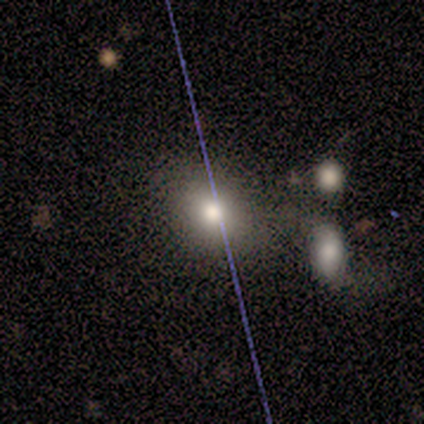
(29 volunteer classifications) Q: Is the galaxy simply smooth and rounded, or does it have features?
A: smooth — 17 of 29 (59%).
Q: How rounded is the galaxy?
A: round — 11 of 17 (65%).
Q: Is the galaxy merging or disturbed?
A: none — 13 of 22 (59%).